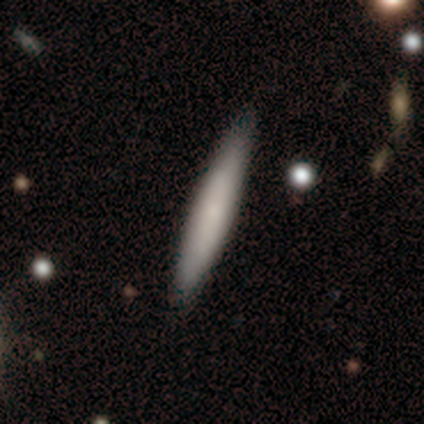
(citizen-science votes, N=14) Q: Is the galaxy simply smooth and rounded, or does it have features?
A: smooth — 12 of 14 (86%).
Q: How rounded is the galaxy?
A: cigar-shaped — 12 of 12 (100%).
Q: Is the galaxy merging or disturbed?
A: none — 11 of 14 (79%).